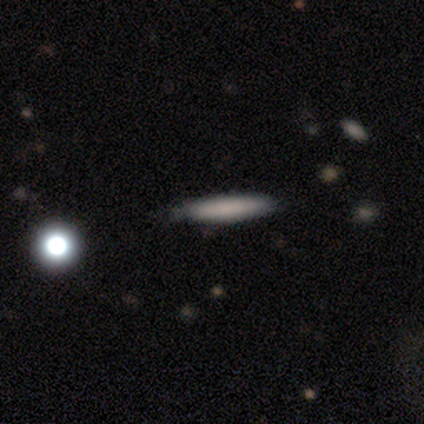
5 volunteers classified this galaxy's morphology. This is clearly a smooth galaxy (100%). How rounded: likely cigar-shaped (60%). Merging: clearly none (100%).